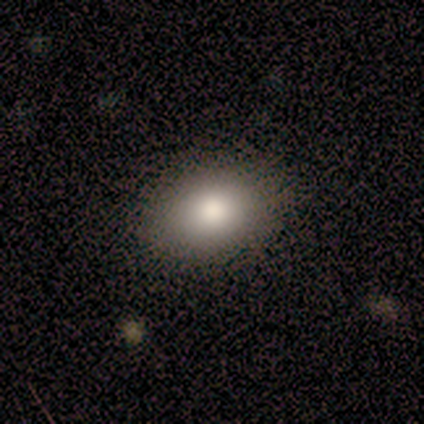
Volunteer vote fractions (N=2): smooth 100%, featured or disk 0%, star or artifact 0%. Down the decision tree: how rounded — round (50%, tied with in between); merging — none (100%).